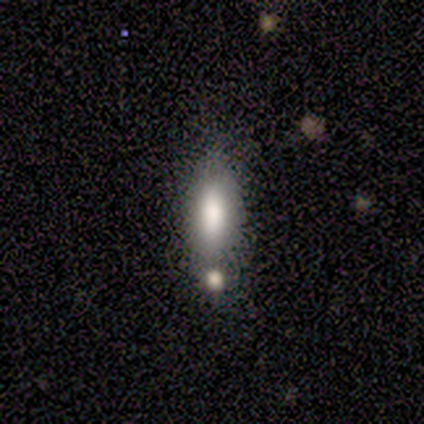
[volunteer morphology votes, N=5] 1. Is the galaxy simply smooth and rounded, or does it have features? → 100% smooth, 0% featured or disk, 0% star or artifact.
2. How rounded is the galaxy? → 80% in between, 20% cigar-shaped, 0% round.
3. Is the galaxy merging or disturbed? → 80% none, 20% merger, 0% minor disturbance, 0% major disturbance.